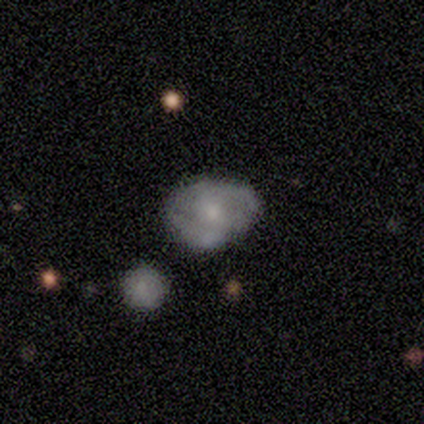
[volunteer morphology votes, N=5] Overall: smooth (60%; featured or disk 40%). How rounded: in between (67%; round 33%). Merging: none (80%).